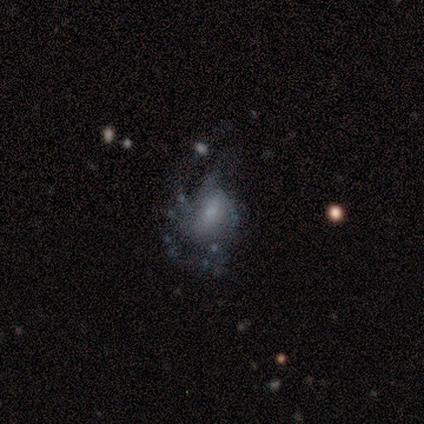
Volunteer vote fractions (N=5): Smooth or featured: featured or disk — 60% (smooth — 20%)
Edge-on disk: no — 100%
Bar: no — 100%
Spiral arms: yes — 67% (no — 33%)
Spiral winding: tight — 50% (tied with medium — 50%)
Spiral arm count: 3 — 50% (tied with can't tell — 50%)
Bulge size: moderate — 33% (tied with small — 33%; none — 33%)
Merging: none — 75% (major disturbance — 25%)